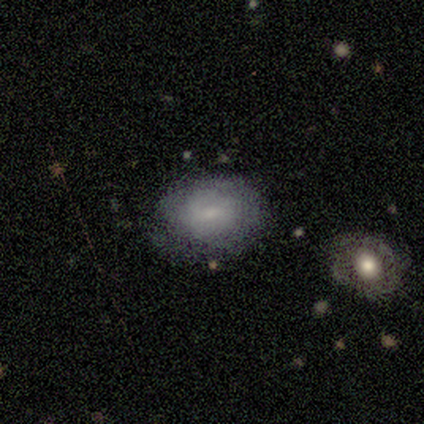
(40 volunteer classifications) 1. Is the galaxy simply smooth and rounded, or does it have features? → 68% smooth, 32% featured or disk, 0% star or artifact.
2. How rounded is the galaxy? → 52% in between, 48% round, 0% cigar-shaped.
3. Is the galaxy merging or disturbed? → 82% none, 12% minor disturbance, 5% major disturbance, 0% merger.